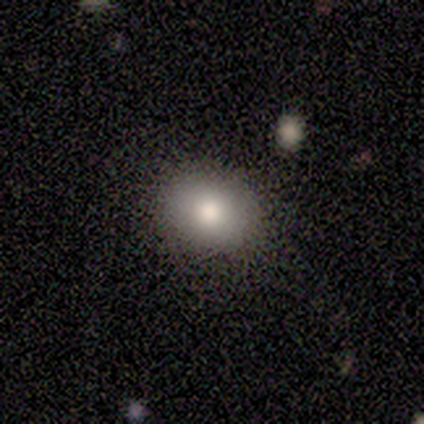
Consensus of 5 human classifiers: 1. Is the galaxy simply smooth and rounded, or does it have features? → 80% smooth, 20% featured or disk, 0% star or artifact.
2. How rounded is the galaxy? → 100% round, 0% in between, 0% cigar-shaped.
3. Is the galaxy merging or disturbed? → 80% none, 20% minor disturbance, 0% major disturbance, 0% merger.